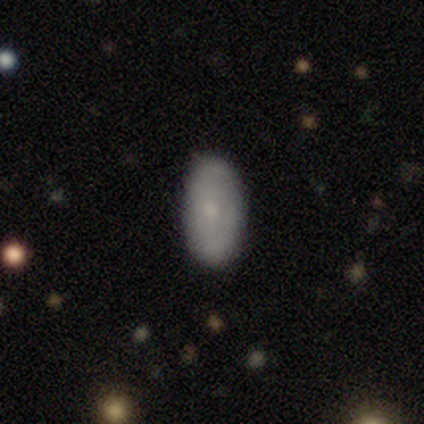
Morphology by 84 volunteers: Smooth or featured?
  - smooth: 75% *
  - featured or disk: 23%
  - star or artifact: 2%
How rounded?
  - in between: 90% *
  - cigar-shaped: 10%
  - round: 0%
Merging?
  - none: 90% *
  - minor disturbance: 5%
  - major disturbance: 5%
  - merger: 0%